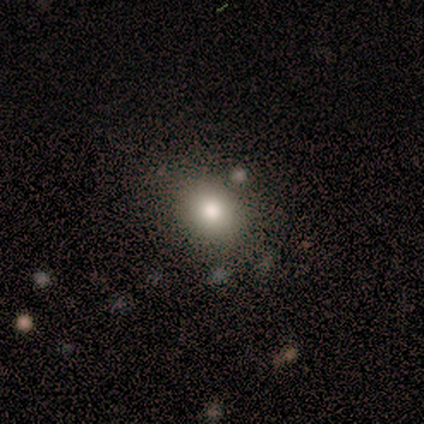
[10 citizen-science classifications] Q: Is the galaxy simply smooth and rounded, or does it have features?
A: smooth — 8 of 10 (80%).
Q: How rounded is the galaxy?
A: round — 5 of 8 (62%).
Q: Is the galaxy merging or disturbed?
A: none — 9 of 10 (90%).